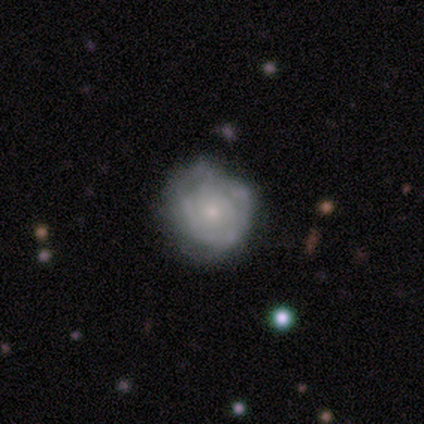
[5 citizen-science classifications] featured or disk 100%, smooth 0%, star or artifact 0%. Down the decision tree: edge-on disk — no (100%); bar — no (100%); spiral arms — yes (60%); spiral arm count — can't tell (100%); spiral winding — tight (100%); bulge size — small (60%); merging — none (80%).